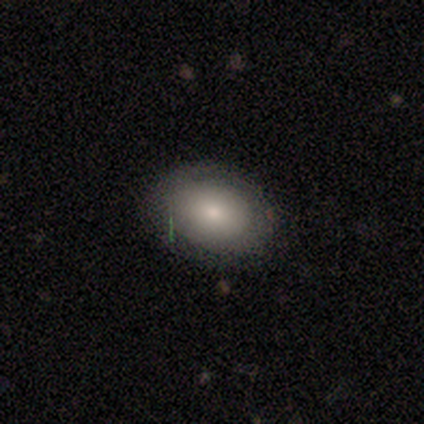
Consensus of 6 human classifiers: Smooth or featured? smooth (67%)
How rounded? in between (75%)
Merging? none (80%)